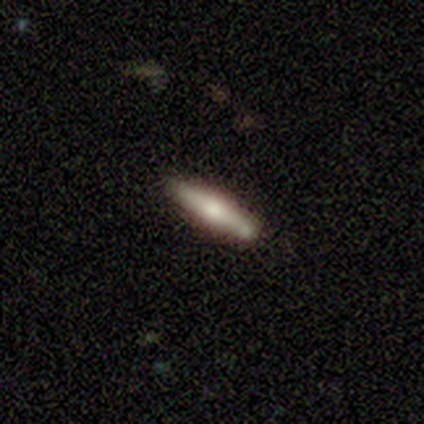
smooth 47%, featured or disk 46%, star or artifact 6%. Down the decision tree: how rounded — cigar-shaped (86%); merging — none (40%).